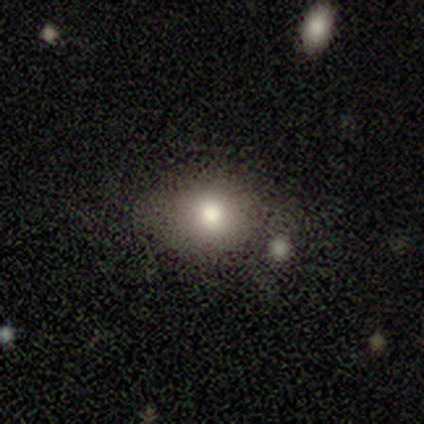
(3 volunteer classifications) smooth_or_featured: smooth (p=0.67) [alt: star or artifact p=0.33]
how_rounded: round (p=0.50) [tied with: in between p=0.50]
merging: none (p=1.00)